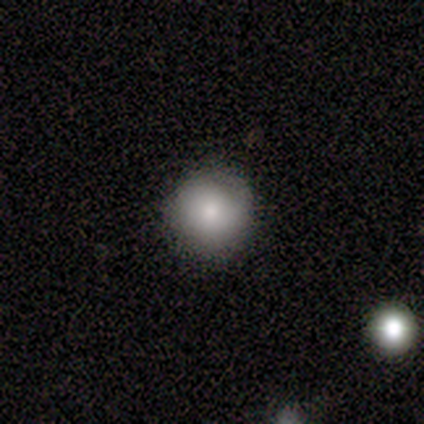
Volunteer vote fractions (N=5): This is clearly a smooth galaxy (100%). How rounded: clearly round (100%). Merging: clearly none (100%).